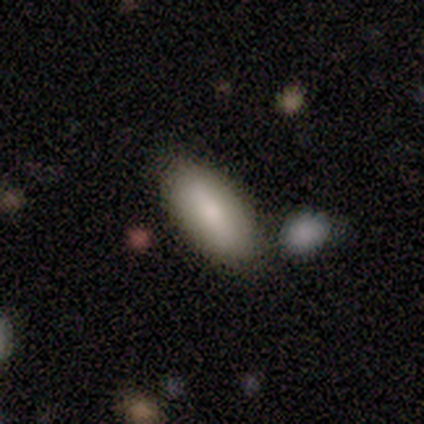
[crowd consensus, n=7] Morphology: type=smooth (86%); roundness=in between (100%); merging=none (71%).